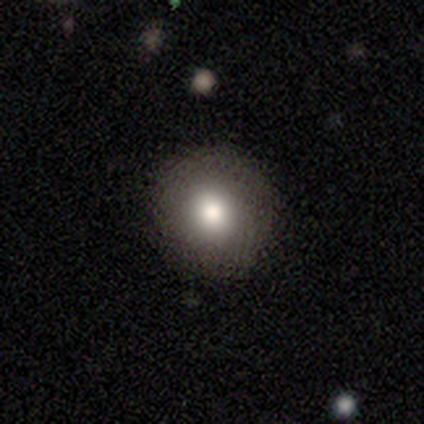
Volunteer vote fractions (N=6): A smooth galaxy with no disk features (83%) that is round (80%).

Vote fractions:
- Smooth or featured? smooth: 83% / featured or disk: 17% / star or artifact: 0%
- How rounded? round: 80% / in between: 20% / cigar-shaped: 0%
- Merging? none: 100% / minor disturbance: 0% / major disturbance: 0% / merger: 0%